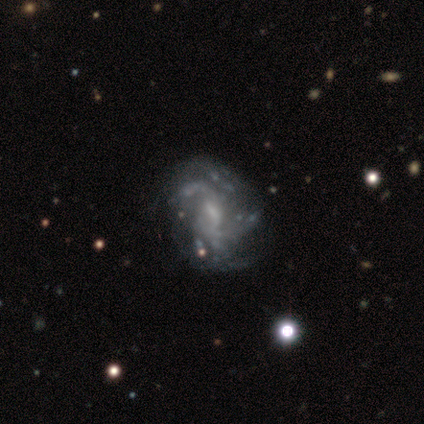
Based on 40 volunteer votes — A featured or disk galaxy (100%) with a weak bar (65%), 2 (47%) medium (50%) spiral arms (90%) and a small central bulge (48%).

Vote fractions:
- Smooth or featured? featured or disk: 100% / smooth: 0% / star or artifact: 0%
- Edge-on disk? no: 100% / yes: 0%
- Bar? weak: 65% / no: 28% / strong: 8%
- Spiral arms? yes: 90% / no: 10%
- Spiral winding? medium: 50% / loose: 28% / tight: 22%
- Spiral arm count? 2: 47% / can't tell: 33% / 3: 11% / more than 4: 6% / 4: 3% / 1: 0%
- Bulge size? small: 48% / none: 32% / moderate: 18% / large: 2% / dominant: 0%
- Merging? none: 45% / minor disturbance: 18% / major disturbance: 18% / merger: 2%